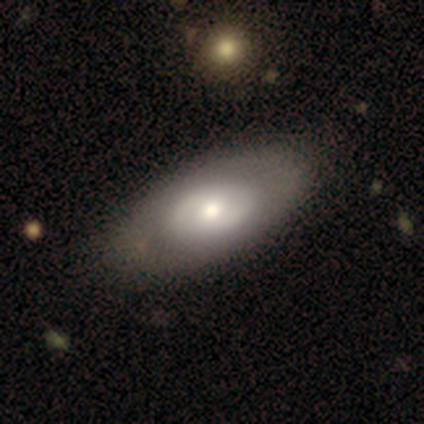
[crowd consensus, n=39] Overall: featured or disk (51%; smooth 46%). Edge-on disk: no (95%). Bar: no (74%). Spiral arms: no (74%). Bulge size: moderate (79%). Merging: none (50%).